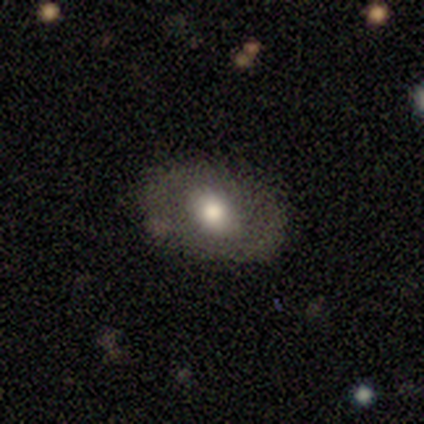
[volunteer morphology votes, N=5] A smooth galaxy with no disk features (60%) that is in between round and cigar-shaped (100%). Merging: none (80%).